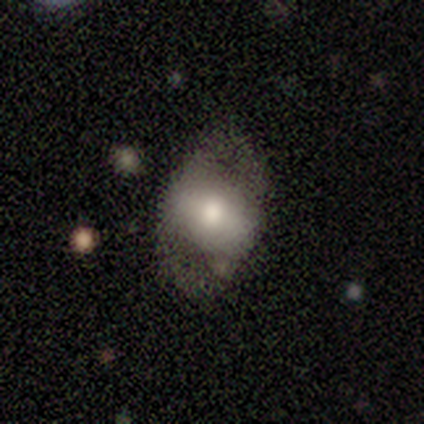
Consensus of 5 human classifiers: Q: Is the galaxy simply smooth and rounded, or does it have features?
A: featured or disk — 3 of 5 (60%).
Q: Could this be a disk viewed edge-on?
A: no — 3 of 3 (100%).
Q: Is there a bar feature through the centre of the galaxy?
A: no — 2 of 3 (67%).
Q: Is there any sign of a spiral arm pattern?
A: no — 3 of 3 (100%).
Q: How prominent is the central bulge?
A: moderate — 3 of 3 (100%).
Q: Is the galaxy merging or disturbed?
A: major disturbance — 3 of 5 (60%).